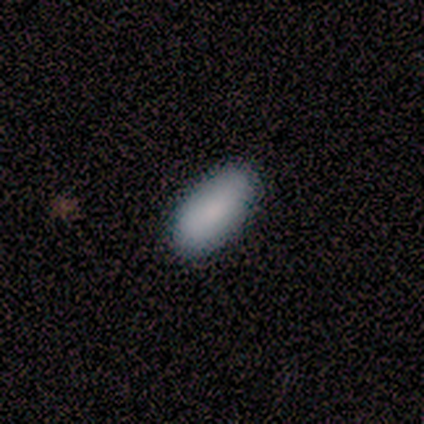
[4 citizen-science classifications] Smooth or featured: smooth — 100%
How rounded: in between — 50% (tied with cigar-shaped — 50%)
Merging: none — 75% (minor disturbance — 25%)